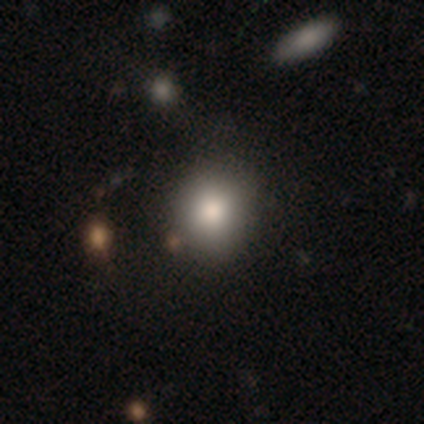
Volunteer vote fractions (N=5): This appears to be a smooth galaxy with no disk features (100%) that is round (60%). Merging: none (100%).